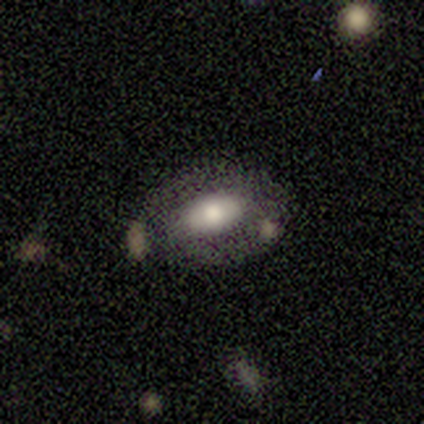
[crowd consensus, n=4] A featured or disk galaxy (75%) with a strong bar (50%, tied with no), 3 (100%) tight (100%) spiral arms (50%, tied with no) and a moderate central bulge (50%, tied with small).

Vote fractions:
- Smooth or featured? featured or disk: 75% / smooth: 25% / star or artifact: 0%
- Edge-on disk? no: 67% / yes: 33%
- Bar? strong: 50% (tied) / no: 50% (tied) / weak: 0%
- Spiral arms? yes: 50% (tied) / no: 50% (tied)
- Spiral winding? tight: 100% / medium: 0% / loose: 0%
- Spiral arm count? 3: 100% / 1: 0% / 2: 0% / 4: 0% / more than 4: 0% / can't tell: 0%
- Bulge size? moderate: 50% (tied) / small: 50% (tied) / dominant: 0% / large: 0% / none: 0%
- Merging? minor disturbance: 50% (tied) / major disturbance: 50% (tied) / none: 0% / merger: 0%